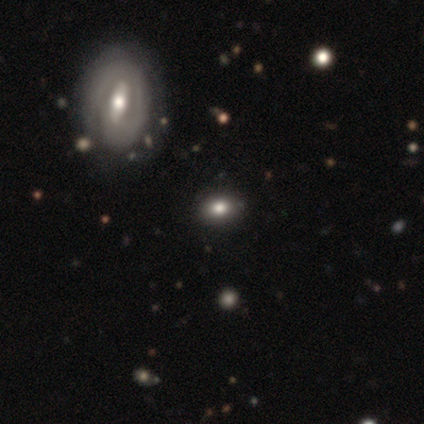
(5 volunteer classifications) Smooth or featured? featured or disk (60%)
Edge-on disk? no (100%)
Bar? weak (67%)
Spiral arms? no (67%)
Bulge size? moderate (67%)
Merging? none (100%)